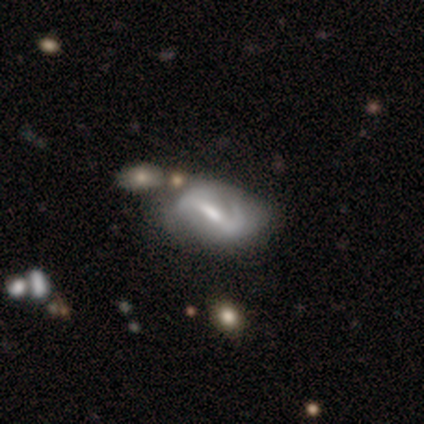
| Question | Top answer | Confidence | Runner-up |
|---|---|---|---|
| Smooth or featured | featured or disk | 100% | — |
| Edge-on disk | no | 100% | — |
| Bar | weak | 80% | strong (20%) |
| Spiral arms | yes | 80% | no (20%) |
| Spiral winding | medium | 75% | loose (25%) |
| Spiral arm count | can't tell | 50% | 1 (25%) |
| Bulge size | moderate | 40% | tied: small (40%) |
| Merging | none | 40% | tied: major disturbance (40%) |